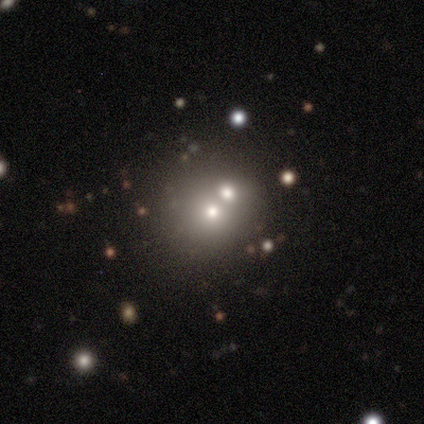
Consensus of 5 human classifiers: This appears to be a smooth galaxy with no disk features (40%, tied with featured or disk) that is round (100%). Merging: merger (75%).